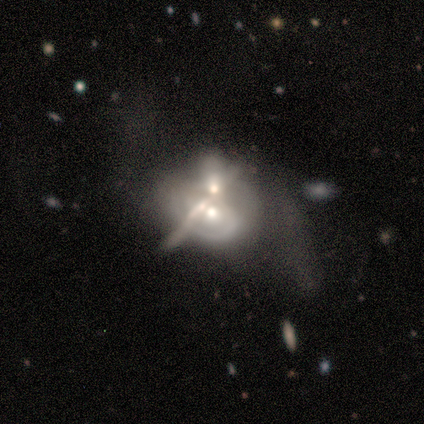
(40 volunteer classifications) Smooth or featured? 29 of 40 (72%) said featured or disk. Edge-on disk? 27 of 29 (93%) said no. Bar? 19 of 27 (70%) said no. Spiral arms? 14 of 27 (52%) said no. Bulge size? 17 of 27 (63%) said moderate. Merging? 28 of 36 (78%) said merger.